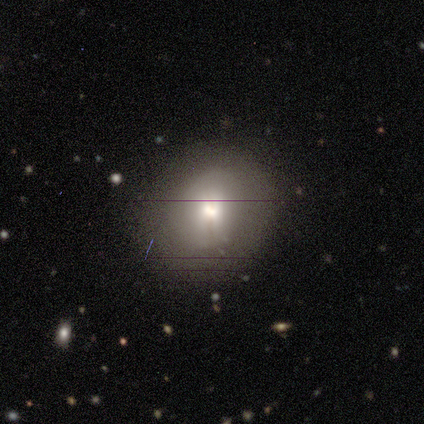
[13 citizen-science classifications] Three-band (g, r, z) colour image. It shows a smooth galaxy with no disk features (69%) that is round (89%). Merging: none (92%).